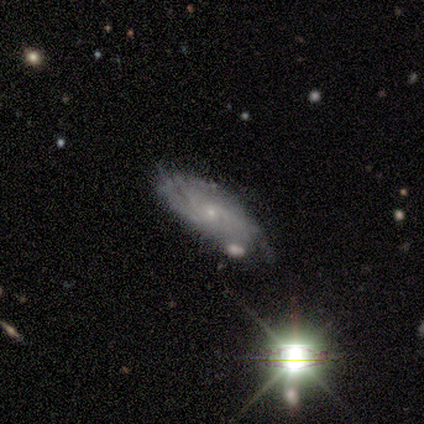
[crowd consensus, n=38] Morphology: type=featured or disk (71%); edge-on=no (85%); bar=no (91%); spiral arms=yes (91%); winding=tight (81%); arm count=can't tell (71%); bulge=small (96%); merging=none (62%).